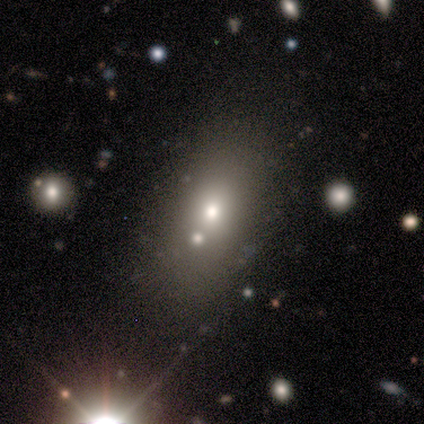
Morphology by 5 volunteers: A smooth galaxy with no disk features (80%) that is in between round and cigar-shaped (100%). Merging: none (80%).